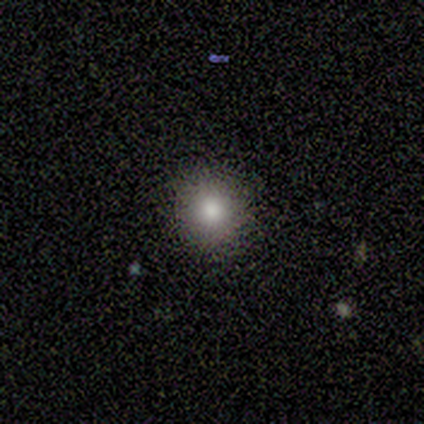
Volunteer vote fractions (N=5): This appears to be a smooth galaxy with no disk features (100%) that is round (100%). Merging: none (100%).